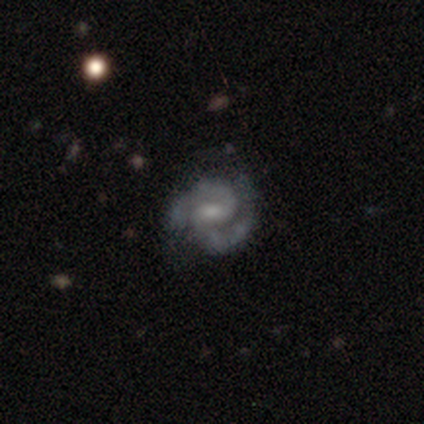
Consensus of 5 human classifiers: A featured or disk galaxy (100%) with a weak bar (60%), 2 (100%) medium (60%) spiral arms (100%) and a small central bulge (80%). Merging: none (80%).